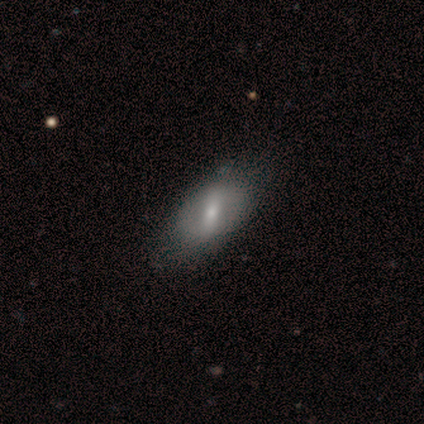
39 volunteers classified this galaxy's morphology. A featured or disk galaxy (59%) with a strong bar (55%), no spiral arms (77%) and a small central bulge (55%).

Vote fractions:
- Smooth or featured? featured or disk: 59% / smooth: 38% / star or artifact: 3%
- Edge-on disk? no: 96% / yes: 4%
- Bar? strong: 55% / weak: 41% / no: 5%
- Spiral arms? no: 77% / yes: 23%
- Bulge size? small: 55% / moderate: 27% / large: 9% / none: 9% / dominant: 0%
- Merging? none: 61% / minor disturbance: 21% / merger: 3% / major disturbance: 0%